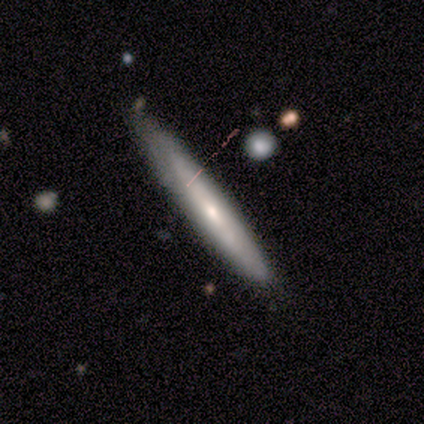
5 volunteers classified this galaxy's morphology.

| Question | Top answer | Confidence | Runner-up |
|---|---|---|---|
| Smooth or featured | smooth | 40% | tied: featured or disk (40%) |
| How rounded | cigar-shaped | 100% | — |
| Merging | none | 75% | minor disturbance (25%) |